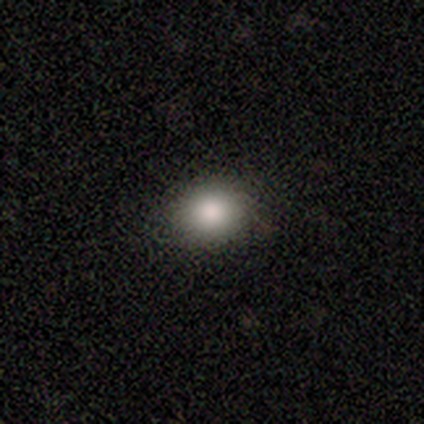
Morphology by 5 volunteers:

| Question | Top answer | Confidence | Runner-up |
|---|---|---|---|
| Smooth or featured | smooth | 80% | featured or disk (20%) |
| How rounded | round | 75% | in between (25%) |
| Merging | none | 80% | minor disturbance (20%) |